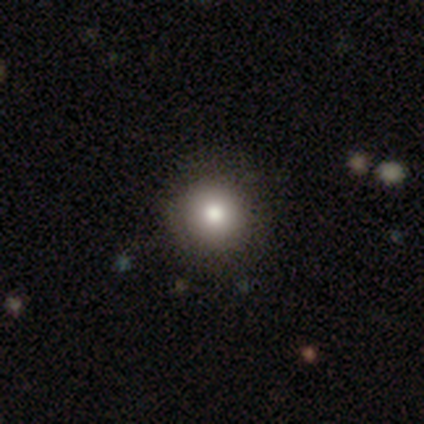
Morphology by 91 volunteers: This appears to be a smooth galaxy with no disk features (77%) that is round (93%). Merging: none (88%).